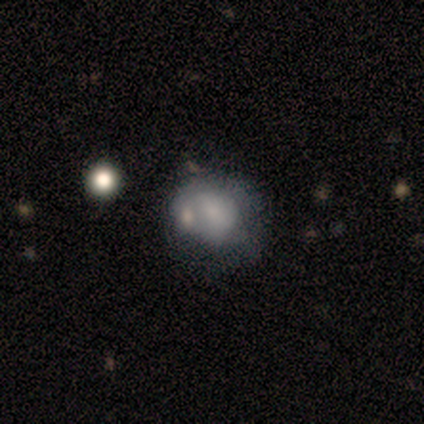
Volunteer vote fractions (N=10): This is clearly a smooth galaxy (80%). How rounded: possibly round (50%, tied with in between). Merging: marginally minor disturbance (44%, tied with merger).